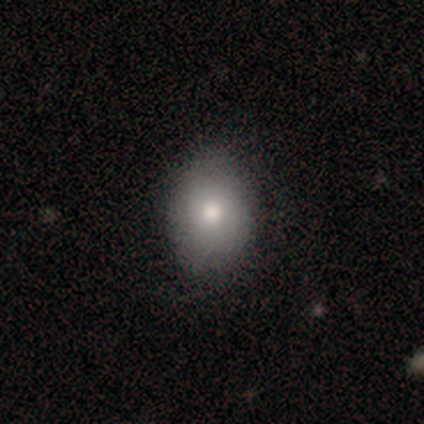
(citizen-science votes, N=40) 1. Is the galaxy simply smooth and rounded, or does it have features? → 78% smooth, 18% featured or disk, 5% star or artifact.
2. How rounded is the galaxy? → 77% in between, 23% round, 0% cigar-shaped.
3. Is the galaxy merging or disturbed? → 55% none, 13% minor disturbance, 0% major disturbance, 0% merger.